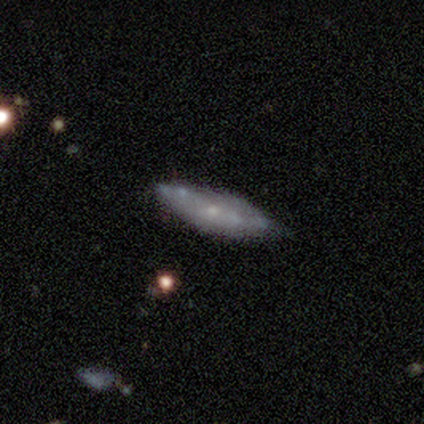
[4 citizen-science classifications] Overall: featured or disk (100%). Edge-on disk: no (75%). Bar: no (100%). Spiral arms: yes (67%; no 33%). Spiral arm count: 2 (50%, tied with can't tell). Spiral winding: medium (50%, tied with loose). Bulge size: small (67%; moderate 33%). Merging: none (50%, tied with minor disturbance).